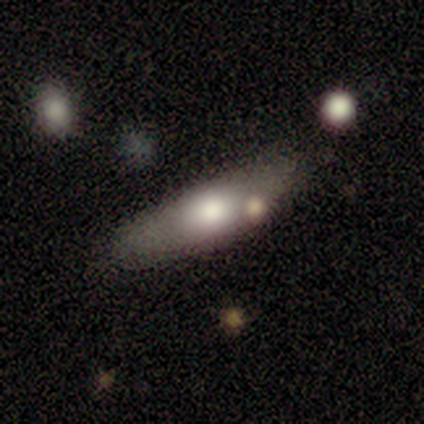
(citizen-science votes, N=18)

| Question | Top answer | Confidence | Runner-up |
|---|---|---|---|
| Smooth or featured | smooth | 61% | featured or disk (33%) |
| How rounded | cigar-shaped | 55% | in between (45%) |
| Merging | none | 65% | minor disturbance (29%) |